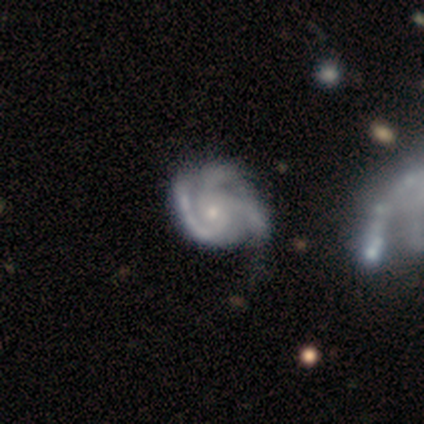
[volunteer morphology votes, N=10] This appears to be a featured or disk galaxy (100%) with no bar (70%), 3 (60%) medium (60%) spiral arms (100%) and a small central bulge (90%). Merging: none (80%).